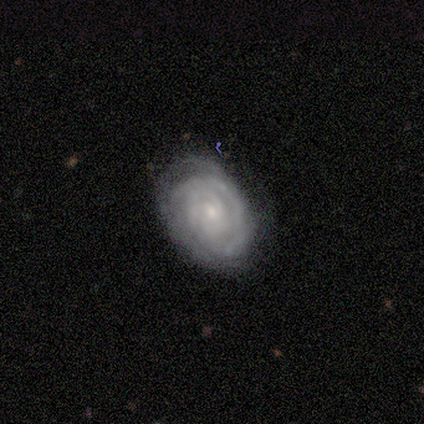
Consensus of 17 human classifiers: featured or disk 82%, smooth 12%, star or artifact 6%. Down the decision tree: edge-on disk — no (86%); bar — no (75%); spiral arms — yes (100%); spiral arm count — can't tell (58%); spiral winding — tight (92%); bulge size — small (83%); merging — none (75%).